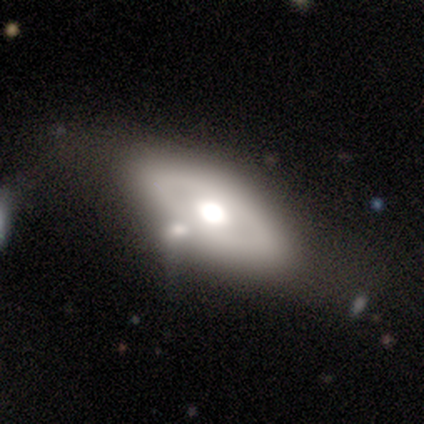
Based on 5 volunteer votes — Smooth or featured? featured or disk (80%)
Edge-on disk? no (75%)
Bar? no (100%)
Spiral arms? no (100%)
Bulge size? large (67%)
Merging? none (40%)